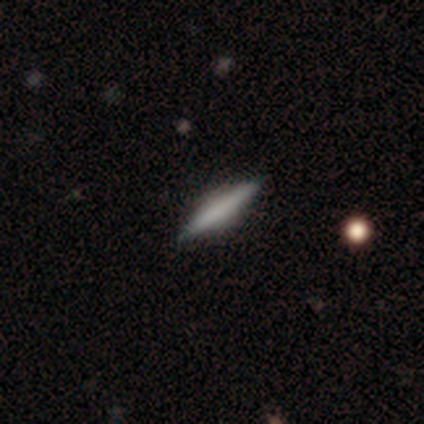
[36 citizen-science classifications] A featured or disk galaxy (53%) viewed edge-on (95%) with no central bulge (61%).

Vote fractions:
- Smooth or featured? featured or disk: 53% / smooth: 44% / star or artifact: 3%
- Edge-on disk? yes: 95% / no: 5%
- Edge-on bulge? none: 61% / boxy: 22% / rounded: 17%
- Merging? none: 86% / minor disturbance: 11% / major disturbance: 3% / merger: 0%